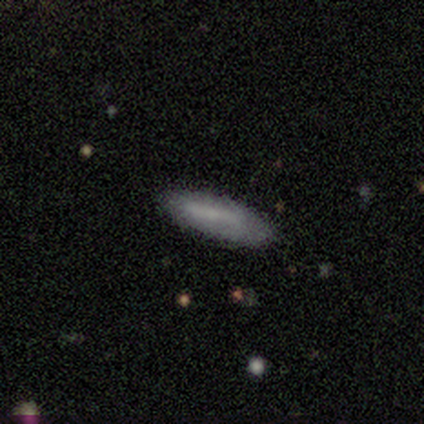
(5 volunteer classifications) Overall: smooth (80%). How rounded: in between (50%, tied with cigar-shaped). Merging: none (80%).